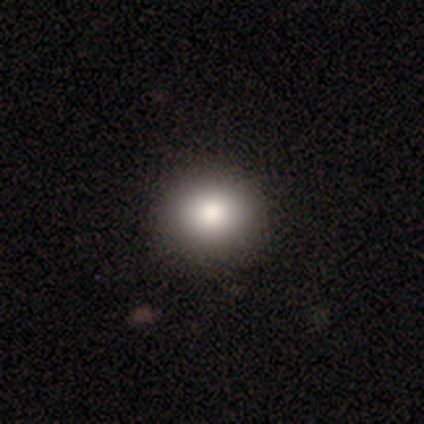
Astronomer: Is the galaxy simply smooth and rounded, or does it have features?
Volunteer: smooth — 84%.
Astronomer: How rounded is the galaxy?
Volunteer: round — 80%.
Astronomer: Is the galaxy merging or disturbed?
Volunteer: none — 48%.